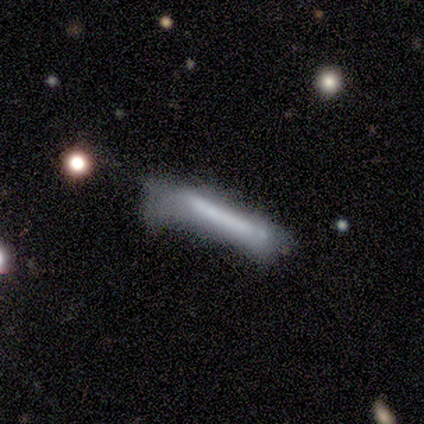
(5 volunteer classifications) Smooth or featured?
  - smooth: 60% *
  - featured or disk: 40%
  - star or artifact: 0%
How rounded?
  - cigar-shaped: 100% *
  - round: 0%
  - in between: 0%
Merging?
  - minor disturbance: 40% * (tied)
  - major disturbance: 40% * (tied)
  - none: 20%
  - merger: 0%